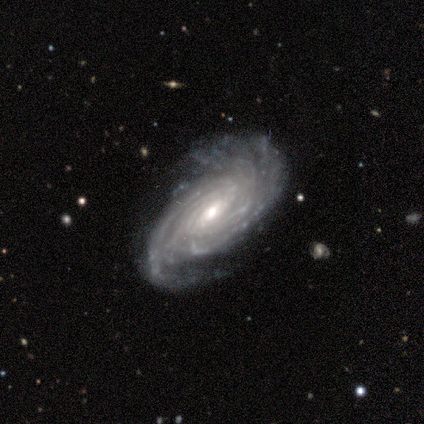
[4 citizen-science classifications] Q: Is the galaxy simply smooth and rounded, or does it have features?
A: featured or disk — 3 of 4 (75%).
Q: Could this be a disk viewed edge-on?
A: no — 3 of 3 (100%).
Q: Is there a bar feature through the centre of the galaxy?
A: weak — 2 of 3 (67%).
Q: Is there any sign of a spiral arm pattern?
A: yes — 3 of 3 (100%).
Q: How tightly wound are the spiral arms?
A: tight — 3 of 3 (100%).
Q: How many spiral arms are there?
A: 4 — 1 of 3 (33%, tied with more than 4 and can't tell).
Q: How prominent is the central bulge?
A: moderate — 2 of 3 (67%).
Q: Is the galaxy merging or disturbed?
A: none — 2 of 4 (50%, tied with minor disturbance).